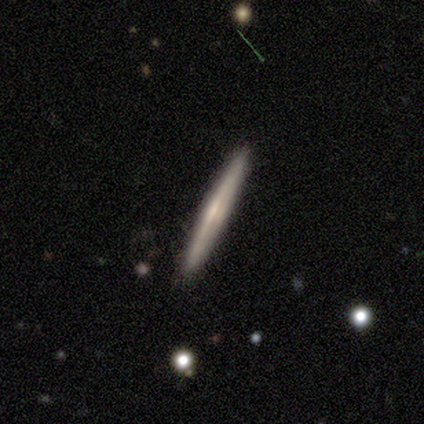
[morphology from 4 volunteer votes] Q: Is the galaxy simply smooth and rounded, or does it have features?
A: featured or disk — 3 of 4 (75%).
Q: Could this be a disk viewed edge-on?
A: yes — 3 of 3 (100%).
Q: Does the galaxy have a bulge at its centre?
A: rounded — 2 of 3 (67%).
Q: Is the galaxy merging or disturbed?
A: none — 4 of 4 (100%).